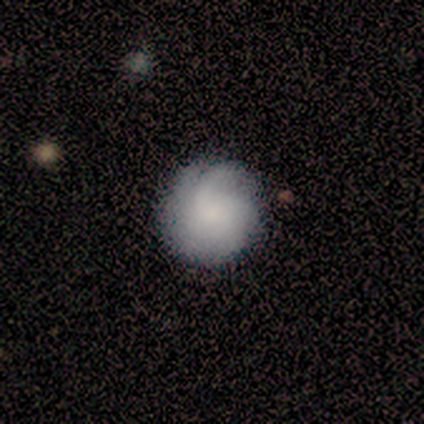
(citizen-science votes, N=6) This appears to be a featured or disk galaxy (50%) with no bar (100%), medium (67%) spiral arms (100%) and a small central bulge (100%). Merging: none (100%).